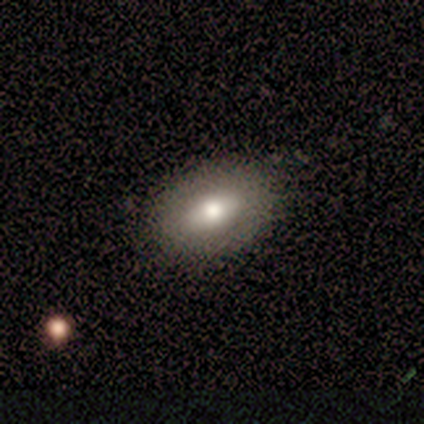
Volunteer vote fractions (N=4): Smooth or featured: star or artifact — 50% (smooth — 25%)